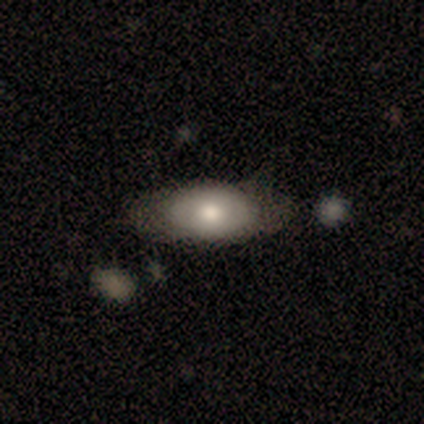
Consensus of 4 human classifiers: This appears to be a smooth galaxy with no disk features (75%) that is in between round and cigar-shaped (100%). Merging: none (100%).